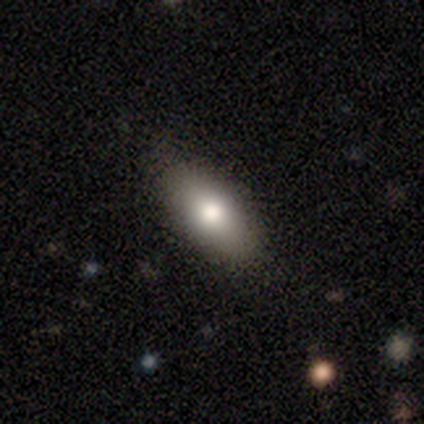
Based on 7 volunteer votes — A smooth galaxy with no disk features (71%) that is in between round and cigar-shaped (100%).

Vote fractions:
- Smooth or featured? smooth: 71% / featured or disk: 29% / star or artifact: 0%
- How rounded? in between: 100% / round: 0% / cigar-shaped: 0%
- Merging? none: 71% / minor disturbance: 29% / major disturbance: 0% / merger: 0%